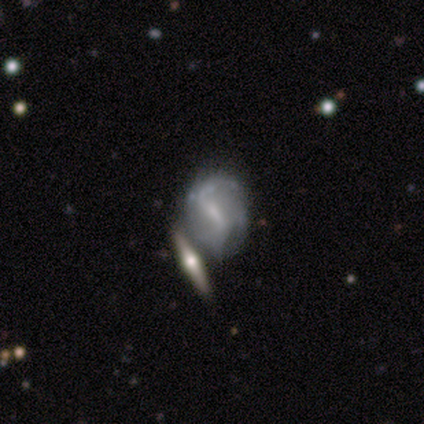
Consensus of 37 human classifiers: Volunteers were most divided on "bar" (2-way tie): strong: 50%, weak: 50%, no: 0%. Remaining: spiral arms — yes (82%); edge-on disk — no (81%); smooth or featured — featured or disk (73%); merging — merger (60%); spiral arm count — 2 (50%); bulge size — small (45%); spiral winding — loose (44%).